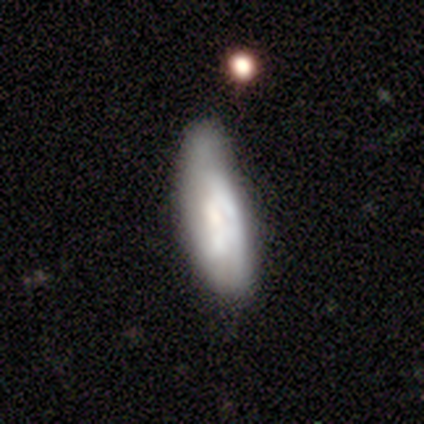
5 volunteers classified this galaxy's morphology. smooth_or_featured: featured or disk (p=0.60) [alt: smooth p=0.20]
disk_edge_on: no (p=0.67) [alt: yes p=0.33]
bar: no (p=1.00)
has_spiral_arms: no (p=1.00)
bulge_size: moderate (p=0.50) [tied with: none p=0.50]
merging: minor disturbance (p=0.75) [alt: none p=0.25]